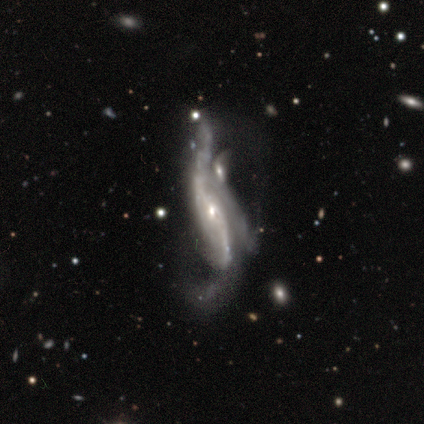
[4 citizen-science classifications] smooth_or_featured: featured or disk (p=1.00)
disk_edge_on: no (p=1.00)
bar: no (p=0.75) [alt: weak p=0.25]
has_spiral_arms: yes (p=1.00)
spiral_winding: loose (p=1.00)
spiral_arm_count: 2 (p=0.75) [alt: can't tell p=0.25]
bulge_size: small (p=0.75) [alt: moderate p=0.25]
merging: merger (p=0.75) [alt: none p=0.25]